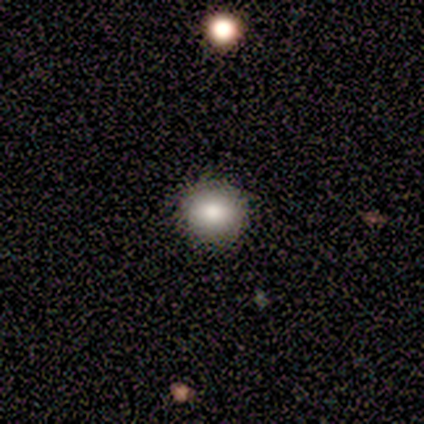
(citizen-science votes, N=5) A smooth galaxy with no disk features (60%) that is round (100%). Merging: none (100%).